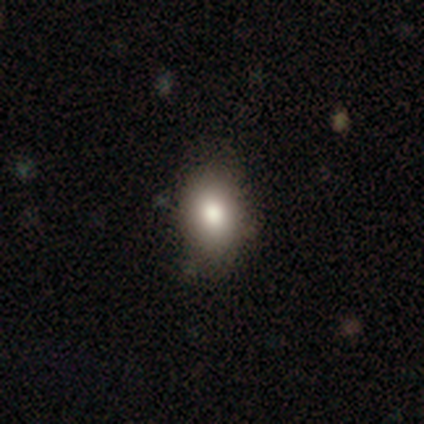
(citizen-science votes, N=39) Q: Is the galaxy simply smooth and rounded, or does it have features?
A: smooth — 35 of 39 (90%).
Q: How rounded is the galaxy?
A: in between — 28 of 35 (80%).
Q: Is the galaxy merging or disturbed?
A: none — 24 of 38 (63%).